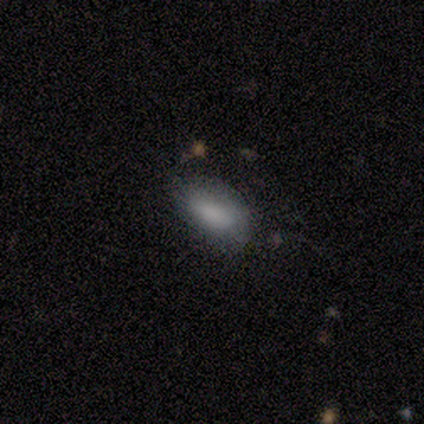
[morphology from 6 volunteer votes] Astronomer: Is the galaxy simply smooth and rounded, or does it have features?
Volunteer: smooth — 83%.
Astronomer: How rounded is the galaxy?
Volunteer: in between — 100%.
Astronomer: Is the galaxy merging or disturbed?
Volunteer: none — 60%.